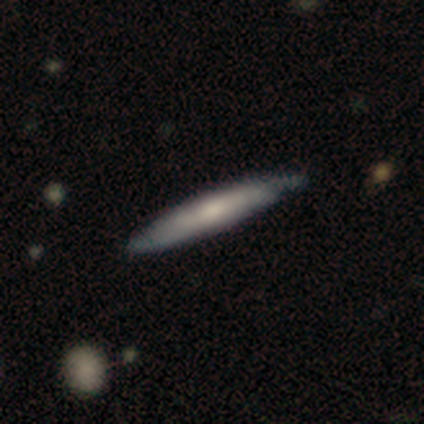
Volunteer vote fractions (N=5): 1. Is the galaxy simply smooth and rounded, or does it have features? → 60% smooth, 40% featured or disk, 0% star or artifact.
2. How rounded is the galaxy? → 100% cigar-shaped, 0% round, 0% in between.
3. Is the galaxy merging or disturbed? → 60% none, 20% minor disturbance, 20% major disturbance, 0% merger.